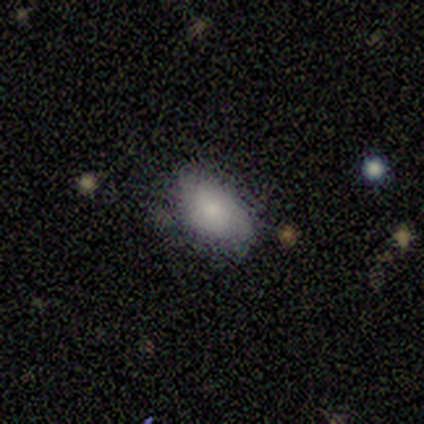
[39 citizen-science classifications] smooth 82%, featured or disk 13%, star or artifact 5%. Down the decision tree: how rounded — in between (91%); merging — none (59%).